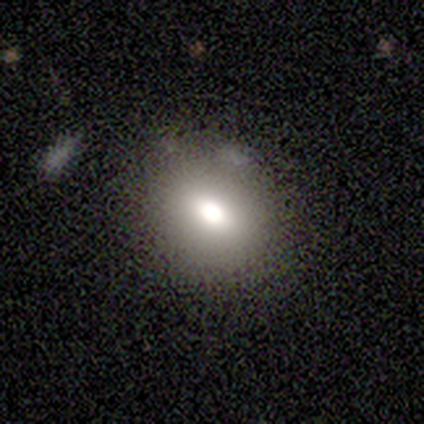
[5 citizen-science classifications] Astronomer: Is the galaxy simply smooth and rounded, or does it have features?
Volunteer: smooth — 80%.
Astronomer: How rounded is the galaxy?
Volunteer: round — 50%, tied with in between at 50%.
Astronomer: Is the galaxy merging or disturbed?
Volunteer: none — 80%.